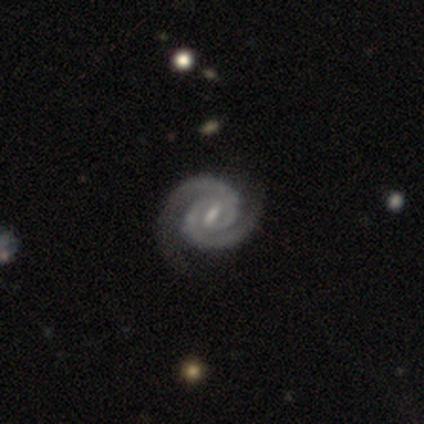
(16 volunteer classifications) A featured or disk galaxy (100%) with a weak bar (62%), 2 (100%) tight (62%) spiral arms (100%) and a moderate central bulge (44%).

Vote fractions:
- Smooth or featured? featured or disk: 100% / smooth: 0% / star or artifact: 0%
- Edge-on disk? no: 100% / yes: 0%
- Bar? weak: 62% / strong: 31% / no: 6%
- Spiral arms? yes: 100% / no: 0%
- Spiral winding? tight: 62% / medium: 31% / loose: 6%
- Spiral arm count? 2: 100% / 1: 0% / 3: 0% / 4: 0% / more than 4: 0% / can't tell: 0%
- Bulge size? moderate: 44% / small: 31% / none: 25% / dominant: 0% / large: 0%
- Merging? none: 88% / minor disturbance: 12% / major disturbance: 0% / merger: 0%